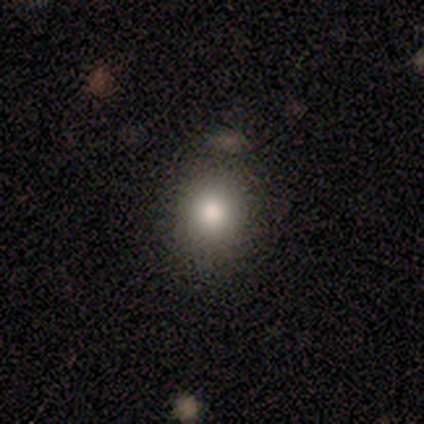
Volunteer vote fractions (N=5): Smooth or featured? 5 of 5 (100%) said smooth. How rounded? 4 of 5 (80%) said round. Merging? 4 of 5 (80%) said none.